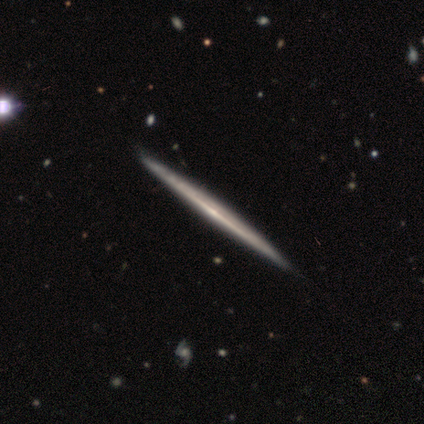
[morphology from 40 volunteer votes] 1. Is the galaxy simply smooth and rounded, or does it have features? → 92% featured or disk, 8% smooth, 0% star or artifact.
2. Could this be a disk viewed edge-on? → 100% yes, 0% no.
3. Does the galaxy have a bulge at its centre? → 76% none, 19% rounded, 5% boxy.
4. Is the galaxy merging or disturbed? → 55% none, 5% minor disturbance, 2% merger, 0% major disturbance.